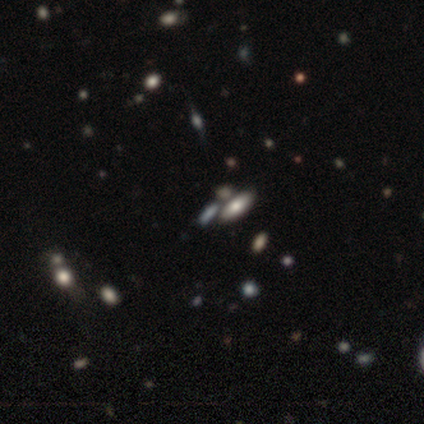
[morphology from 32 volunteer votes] smooth 59%, star or artifact 28%, featured or disk 12%. Down the decision tree: how rounded — in between (68%); merging — none (65%).